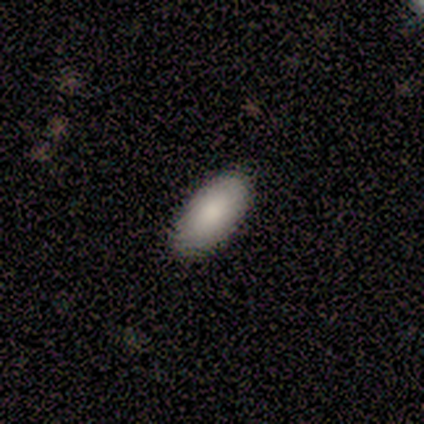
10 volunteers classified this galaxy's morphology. Overall: smooth (100%). How rounded: in between (90%). Merging: none (100%).